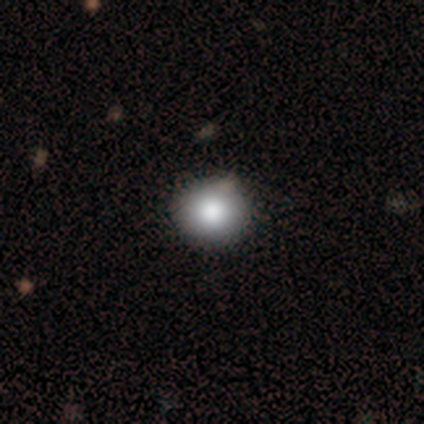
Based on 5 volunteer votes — Q: Smooth or featured?
A: smooth (100%)
Q: How rounded?
A: round (100%)
Q: Merging?
A: none (60%); runner-up: minor disturbance (20%)